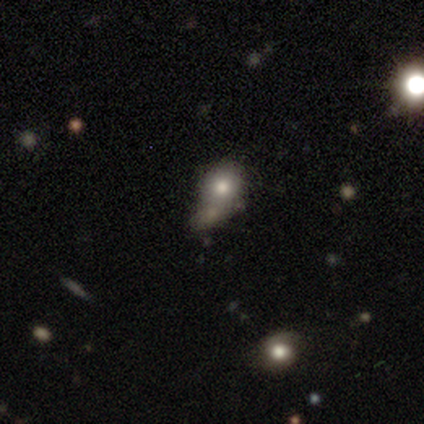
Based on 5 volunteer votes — Smooth or featured?
  - smooth: 80% *
  - featured or disk: 20%
  - star or artifact: 0%
How rounded?
  - round: 75% *
  - in between: 25%
  - cigar-shaped: 0%
Merging?
  - merger: 80% *
  - none: 20%
  - minor disturbance: 0%
  - major disturbance: 0%